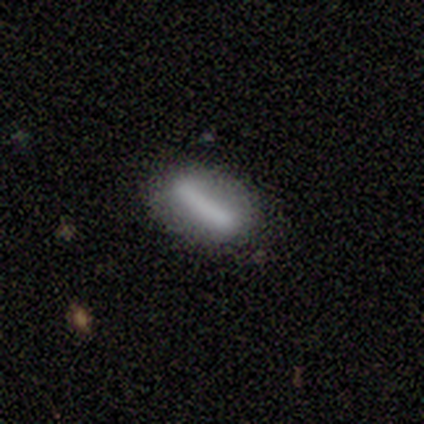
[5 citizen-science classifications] Smooth or featured: smooth — 60% (featured or disk — 20%)
How rounded: cigar-shaped — 67% (in between — 33%)
Merging: none — 100%